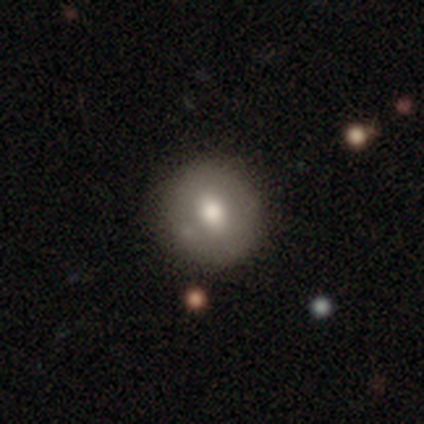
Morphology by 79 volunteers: type=smooth (66%); roundness=round (85%); merging=none (42%).